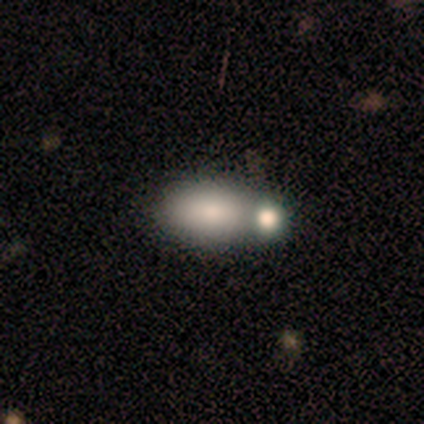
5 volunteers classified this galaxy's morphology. Volunteers were most divided on "merging": none: 50%, minor disturbance: 25%, merger: 25%, major disturbance: 0%. More confident: how rounded — in between (100%); smooth or featured — smooth (80%).